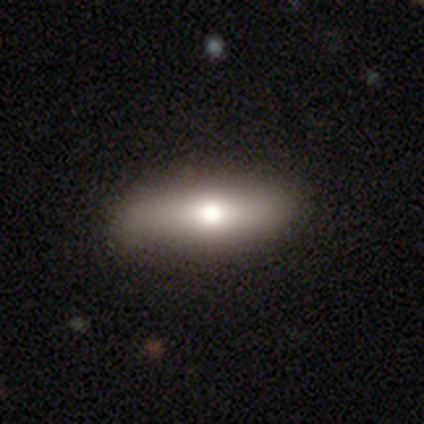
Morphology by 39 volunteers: Volunteers were most divided on "how rounded": in between: 56%, cigar-shaped: 44%, round: 0%. More confident: merging — none (83%); smooth or featured — smooth (64%).